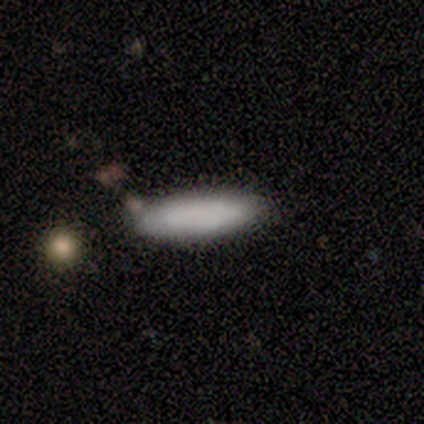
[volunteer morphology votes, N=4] Overall: smooth (100%). How rounded: in between (75%). Merging: none (100%).